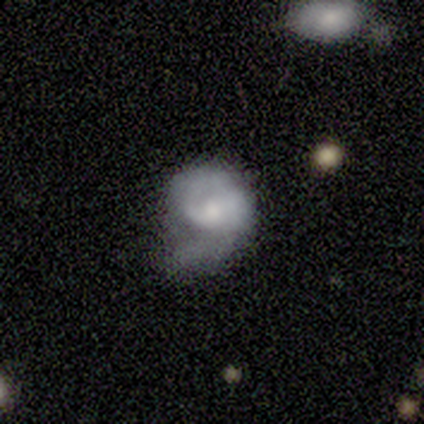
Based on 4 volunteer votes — A smooth galaxy with no disk features (50%, tied with featured or disk) that is round (100%).

Vote fractions:
- Smooth or featured? smooth: 50% (tied) / featured or disk: 50% (tied) / star or artifact: 0%
- How rounded? round: 100% / in between: 0% / cigar-shaped: 0%
- Merging? major disturbance: 50% / none: 25% / minor disturbance: 25% / merger: 0%